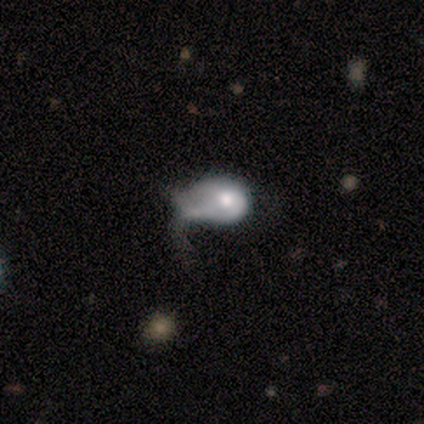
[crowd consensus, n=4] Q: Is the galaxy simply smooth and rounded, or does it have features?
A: featured or disk — 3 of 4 (75%).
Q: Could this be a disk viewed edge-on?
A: no — 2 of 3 (67%).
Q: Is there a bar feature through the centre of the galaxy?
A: no — 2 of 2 (100%).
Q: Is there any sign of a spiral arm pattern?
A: no — 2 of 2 (100%).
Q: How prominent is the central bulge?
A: large — 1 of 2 (50%, tied with moderate).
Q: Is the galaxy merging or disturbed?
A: major disturbance — 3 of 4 (75%).